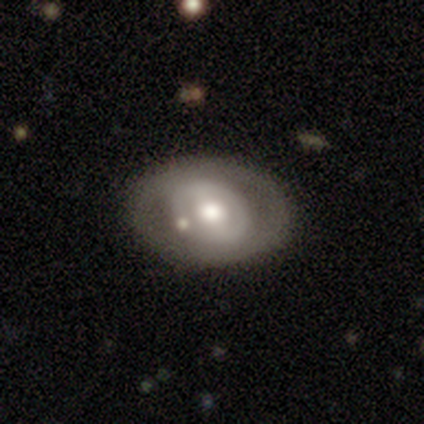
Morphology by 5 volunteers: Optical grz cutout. It shows a featured or disk galaxy (60%) with no bar (100%), no spiral arms (100%) and a moderate central bulge (67%). Merging: minor disturbance (60%).